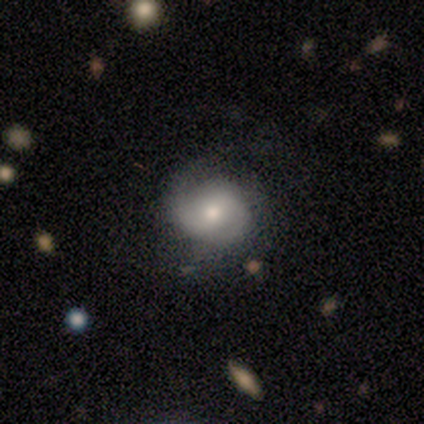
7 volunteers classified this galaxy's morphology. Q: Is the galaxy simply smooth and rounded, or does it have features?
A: featured or disk — 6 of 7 (86%).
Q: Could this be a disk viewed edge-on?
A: no — 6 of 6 (100%).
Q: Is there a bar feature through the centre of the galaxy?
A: weak — 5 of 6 (83%).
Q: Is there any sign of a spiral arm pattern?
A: yes — 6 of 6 (100%).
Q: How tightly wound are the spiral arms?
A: medium — 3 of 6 (50%).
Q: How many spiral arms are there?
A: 1 — 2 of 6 (33%, tied with 2 and can't tell).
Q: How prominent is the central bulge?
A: moderate — 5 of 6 (83%).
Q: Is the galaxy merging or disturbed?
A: none — 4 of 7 (57%).